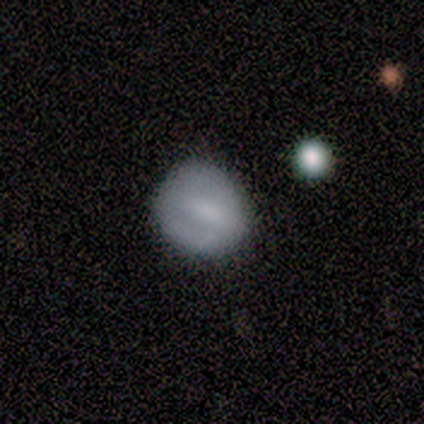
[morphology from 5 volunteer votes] This is likely a smooth galaxy (60%). How rounded: likely round (67%). Merging: clearly none (80%).